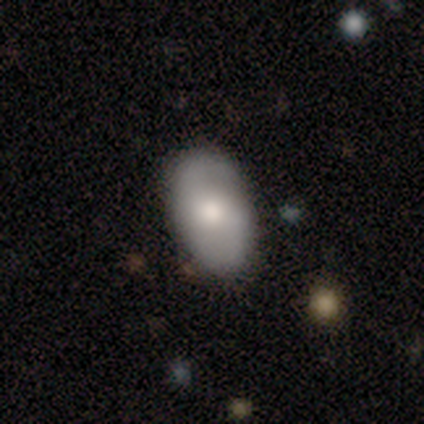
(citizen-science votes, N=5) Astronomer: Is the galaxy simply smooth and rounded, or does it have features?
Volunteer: smooth — 60% (runner-up: featured or disk, 40%).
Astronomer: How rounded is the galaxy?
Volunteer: in between — 100%.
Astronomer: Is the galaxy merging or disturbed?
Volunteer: none — 100%.